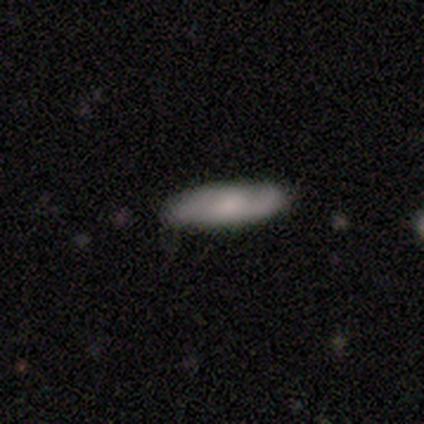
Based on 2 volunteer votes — Q: Smooth or featured?
A: featured or disk (100%)
Q: Edge-on disk?
A: no (100%)
Q: Bar?
A: strong (50%); tied with: no (50%)
Q: Spiral arms?
A: yes (100%)
Q: Spiral winding?
A: medium (50%); tied with: loose (50%)
Q: Spiral arm count?
A: 2 (100%)
Q: Bulge size?
A: moderate (100%)
Q: Merging?
A: none (100%)